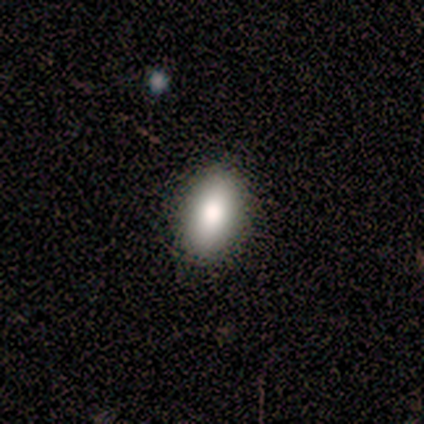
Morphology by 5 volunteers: Overall: smooth (100%). How rounded: in between (100%). Merging: none (60%; minor disturbance 40%).